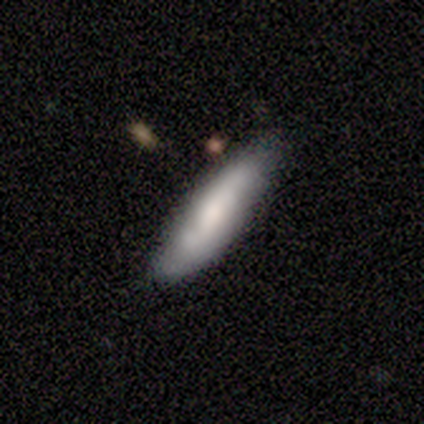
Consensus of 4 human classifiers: Q: Smooth or featured?
A: smooth (50%); tied with: featured or disk (50%)
Q: How rounded?
A: cigar-shaped (100%)
Q: Merging?
A: none (50%); tied with: minor disturbance (50%)